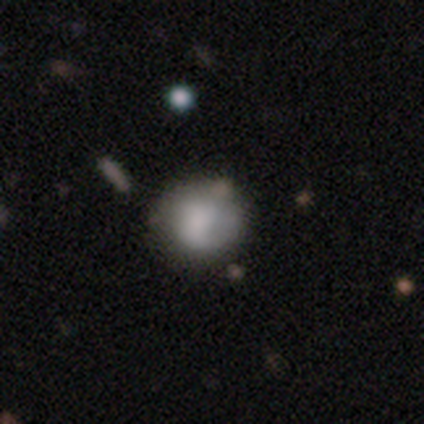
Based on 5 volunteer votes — Q: Smooth or featured?
A: featured or disk (60%); runner-up: smooth (40%)
Q: Edge-on disk?
A: no (100%)
Q: Bar?
A: no (100%)
Q: Spiral arms?
A: no (67%); runner-up: yes (33%)
Q: Bulge size?
A: large (33%); tied with: moderate (33%); none (33%)
Q: Merging?
A: none (60%); runner-up: minor disturbance (40%)